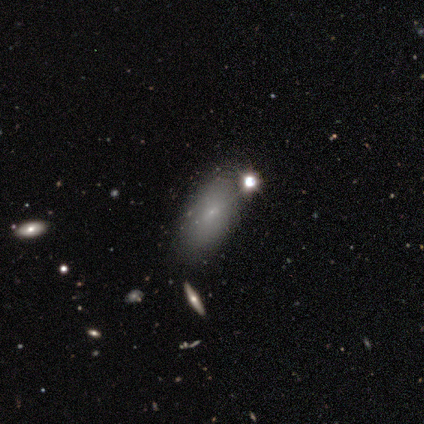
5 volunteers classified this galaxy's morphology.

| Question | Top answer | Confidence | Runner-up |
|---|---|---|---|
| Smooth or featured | smooth | 80% | star or artifact (20%) |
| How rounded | in between | 100% | — |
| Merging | none | 50% | tied: minor disturbance (50%) |